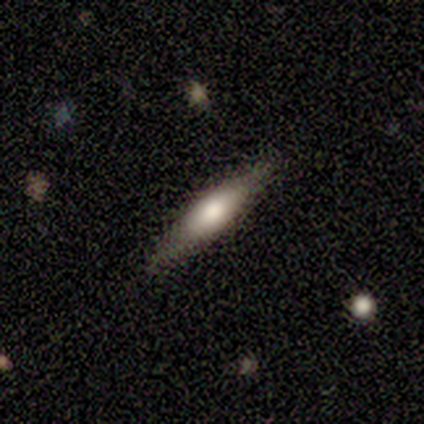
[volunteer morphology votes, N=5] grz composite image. It shows a smooth galaxy with no disk features (60%) that is cigar-shaped (100%). Merging: none (100%).